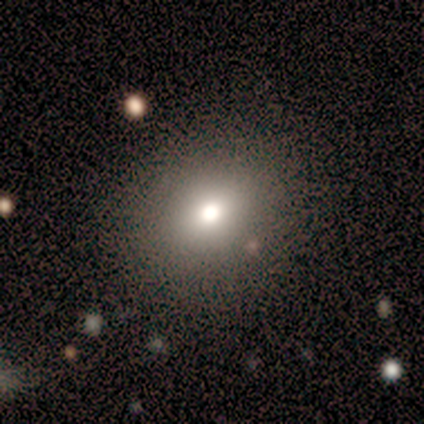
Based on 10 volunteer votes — smooth_or_featured: smooth (p=0.70) [alt: star or artifact p=0.20]
how_rounded: round (p=1.00)
merging: none (p=0.88) [alt: minor disturbance p=0.12]